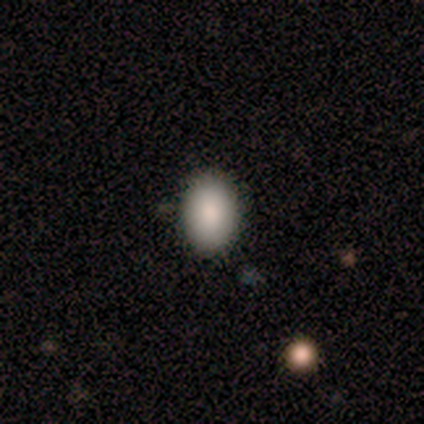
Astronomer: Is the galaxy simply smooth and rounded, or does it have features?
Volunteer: smooth — 100%.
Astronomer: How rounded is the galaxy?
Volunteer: in between — 100%.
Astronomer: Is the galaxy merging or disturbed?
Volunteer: none — 100%.